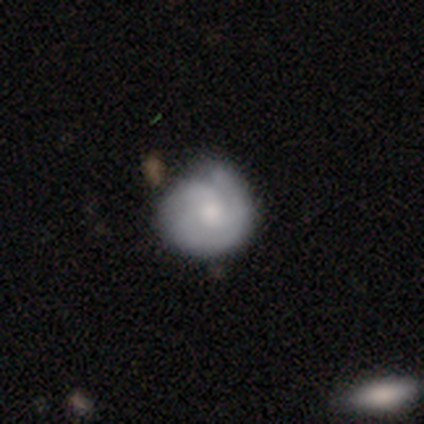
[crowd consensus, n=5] Smooth or featured?
  - featured or disk: 60% *
  - smooth: 40%
  - star or artifact: 0%
Edge-on disk?
  - no: 100% *
  - yes: 0%
Bar?
  - no: 67% *
  - weak: 33%
  - strong: 0%
Spiral arms?
  - yes: 100% *
  - no: 0%
Spiral winding?
  - tight: 67% *
  - medium: 33%
  - loose: 0%
Spiral arm count?
  - 3: 67% *
  - 2: 33%
  - 1: 0%
  - 4: 0%
  - more than 4: 0%
  - can't tell: 0%
Bulge size?
  - moderate: 67% *
  - small: 33%
  - dominant: 0%
  - large: 0%
  - none: 0%
Merging?
  - none: 40% * (tied)
  - minor disturbance: 40% * (tied)
  - major disturbance: 20%
  - merger: 0%